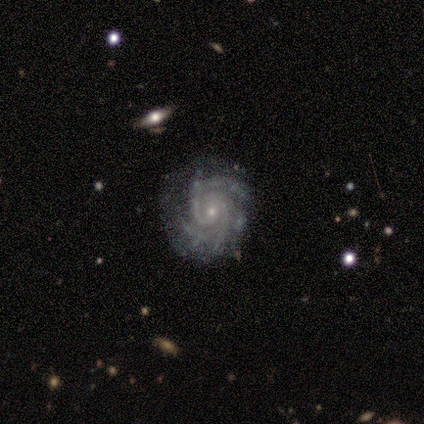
Volunteers were most divided on "spiral arm count": can't tell: 40%, 2: 20%, 3: 20%, 4: 20%, 1: 0%, more than 4: 0%. More confident: smooth or featured — featured or disk (100%); edge-on disk — no (100%); bar — no (100%); spiral arms — yes (100%); spiral winding — tight (100%); bulge size — small (100%); merging — none (80%).